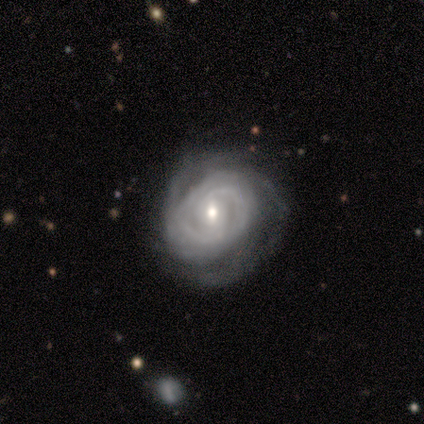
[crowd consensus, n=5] smooth-or-featured: featured or disk: 100% | smooth: 0% | star or artifact: 0%
  disk-edge-on: no: 100% | yes: 0%
    bar: weak: 60% | strong: 40% | no: 0%
    has-spiral-arms: yes: 100% | no: 0%
      spiral-winding: tight: 60% | medium: 40% | loose: 0%
      spiral-arm-count: can't tell: 40% | 2: 20% | 3: 20% | 4: 20% | 1: 0% | more than 4: 0%
    bulge-size: moderate: 60% | small: 40% | dominant: 0% | large: 0% | none: 0%
  merging: major disturbance: 60% | none: 20% | minor disturbance: 20% | merger: 0%